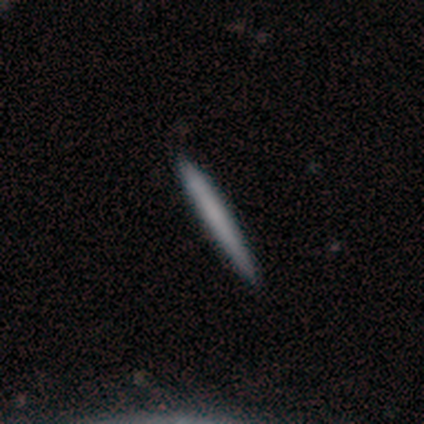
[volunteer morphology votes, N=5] Smooth or featured? 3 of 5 (60%) said featured or disk. Edge-on disk? 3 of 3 (100%) said yes. Edge-on bulge? 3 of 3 (100%) said none. Merging? 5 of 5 (100%) said none.